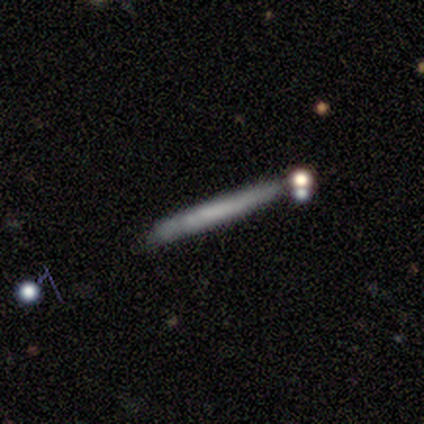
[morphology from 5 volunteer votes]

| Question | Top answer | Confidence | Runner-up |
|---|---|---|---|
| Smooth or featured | featured or disk | 60% | smooth (20%) |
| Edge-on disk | yes | 100% | — |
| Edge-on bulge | none | 100% | — |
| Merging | none | 75% | minor disturbance (25%) |